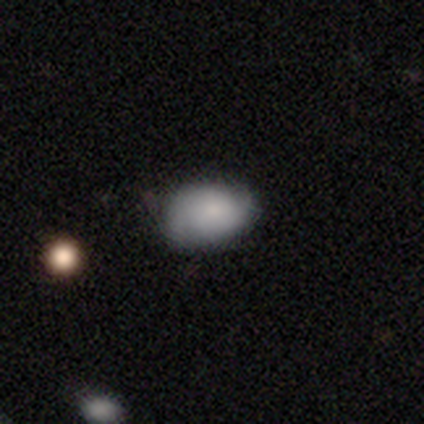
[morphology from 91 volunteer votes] Smooth or featured: smooth — 76% (featured or disk — 18%)
How rounded: in between — 81% (round — 19%)
Merging: none — 54% (minor disturbance — 34%)